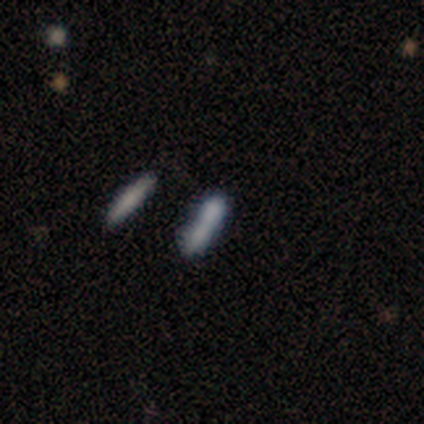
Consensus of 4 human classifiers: A smooth galaxy with no disk features (75%) that is cigar-shaped (67%).

Vote fractions:
- Smooth or featured? smooth: 75% / star or artifact: 25% / featured or disk: 0%
- How rounded? cigar-shaped: 67% / in between: 33% / round: 0%
- Merging? merger: 67% / none: 33% / minor disturbance: 0% / major disturbance: 0%